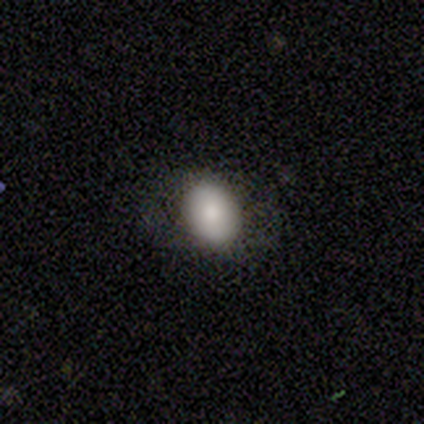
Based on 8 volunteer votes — A smooth galaxy with no disk features (88%) that is in between round and cigar-shaped (57%).

Vote fractions:
- Smooth or featured? smooth: 88% / star or artifact: 12% / featured or disk: 0%
- How rounded? in between: 57% / round: 43% / cigar-shaped: 0%
- Merging? none: 100% / minor disturbance: 0% / major disturbance: 0% / merger: 0%